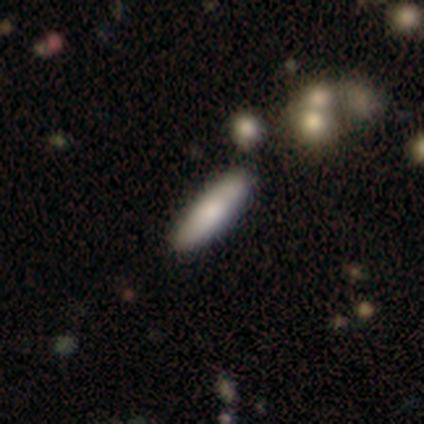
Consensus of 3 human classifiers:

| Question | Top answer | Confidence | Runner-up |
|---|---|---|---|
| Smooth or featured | smooth | 33% | tied: featured or disk (33%), star or artifact (33%) |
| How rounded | cigar-shaped | 100% | — |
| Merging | minor disturbance | 100% | — |